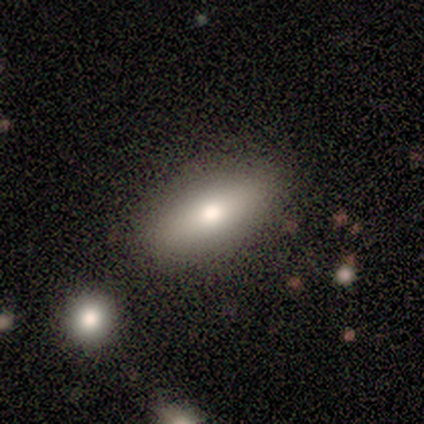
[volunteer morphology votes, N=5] smooth 80%, star or artifact 20%, featured or disk 0%. Down the decision tree: how rounded — in between (75%); merging — none (100%).